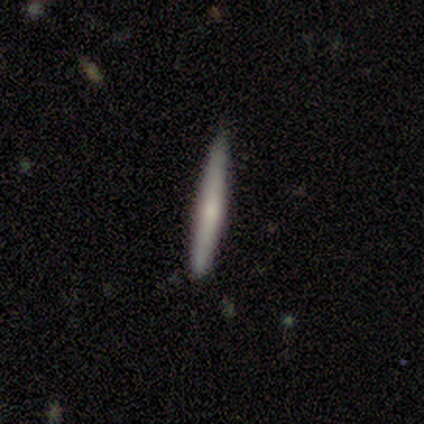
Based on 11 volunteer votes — Smooth or featured?
  - featured or disk: 73% *
  - smooth: 27%
  - star or artifact: 0%
Edge-on disk?
  - yes: 100% *
  - no: 0%
Edge-on bulge?
  - none: 62% *
  - rounded: 38%
  - boxy: 0%
Merging?
  - none: 91% *
  - minor disturbance: 9%
  - major disturbance: 0%
  - merger: 0%